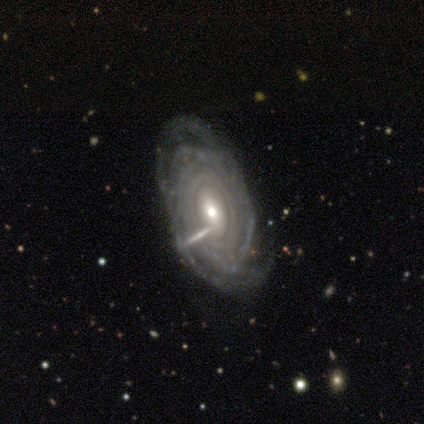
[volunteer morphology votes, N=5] smooth-or-featured: featured or disk: 100% | smooth: 0% | star or artifact: 0%
  disk-edge-on: no: 80% | yes: 20%
    bar: weak: 50% (tied) | no: 50% (tied) | strong: 0%
    has-spiral-arms: yes: 100% | no: 0%
      spiral-winding: tight: 100% | medium: 0% | loose: 0%
      spiral-arm-count: more than 4: 75% | can't tell: 25% | 1: 0% | 2: 0% | 3: 0% | 4: 0%
    bulge-size: small: 50% | dominant: 25% | large: 25% | moderate: 0% | none: 0%
  merging: none: 60% | minor disturbance: 40% | major disturbance: 0% | merger: 0%